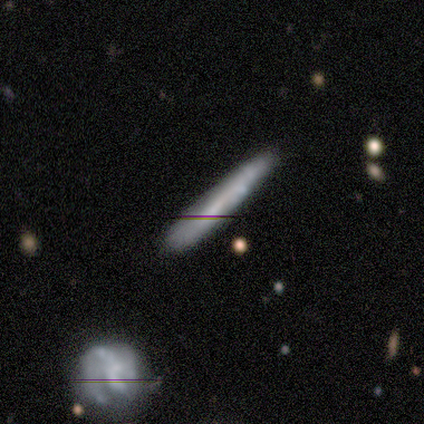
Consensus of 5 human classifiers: smooth 60%, featured or disk 40%, star or artifact 0%. Down the decision tree: how rounded — cigar-shaped (100%); merging — none (100%).